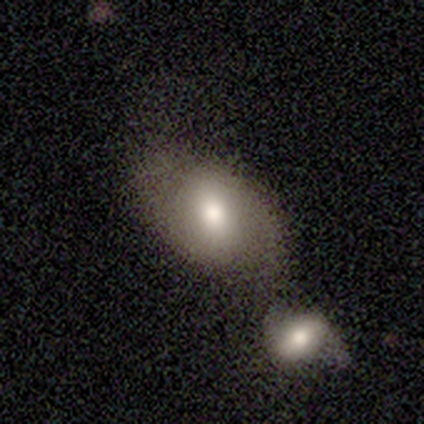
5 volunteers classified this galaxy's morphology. This appears to be a smooth galaxy with no disk features (60%) that is in between round and cigar-shaped (67%). Merging: merger (60%).